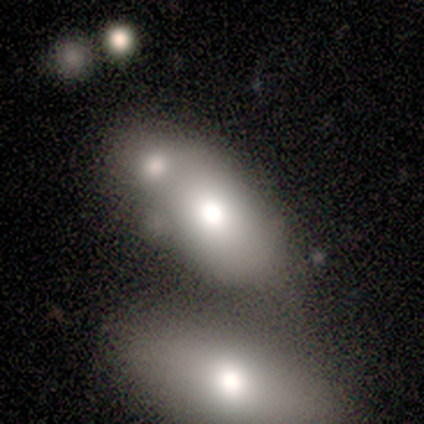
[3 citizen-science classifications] Q: Smooth or featured?
A: smooth (100%)
Q: How rounded?
A: in between (100%)
Q: Merging?
A: merger (67%); runner-up: none (33%)